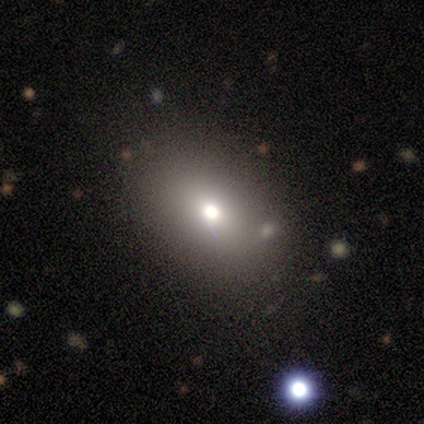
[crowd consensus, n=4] Smooth or featured? smooth (75%)
How rounded? in between (100%)
Merging? none (100%)